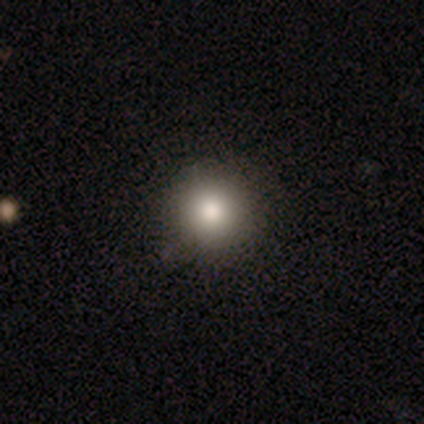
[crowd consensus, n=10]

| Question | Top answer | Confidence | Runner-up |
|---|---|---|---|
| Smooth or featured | smooth | 90% | star or artifact (10%) |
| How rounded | round | 100% | — |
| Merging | none | 100% | — |